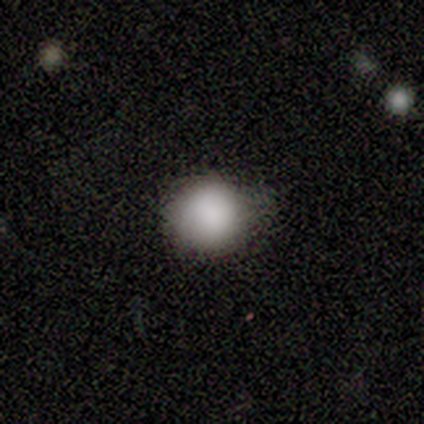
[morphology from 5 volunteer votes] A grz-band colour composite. It shows a smooth galaxy with no disk features (60%) that is round (67%). Merging: none (67%).